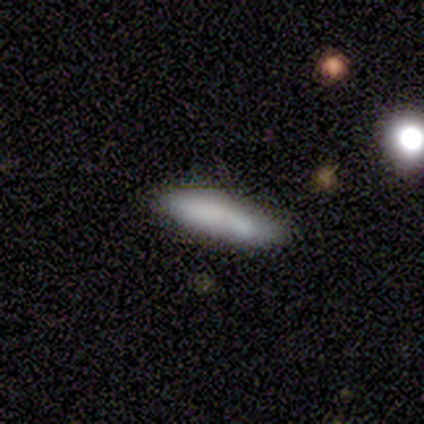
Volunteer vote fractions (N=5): This appears to be a smooth galaxy with no disk features (100%) that is cigar-shaped (80%). Merging: none (60%).